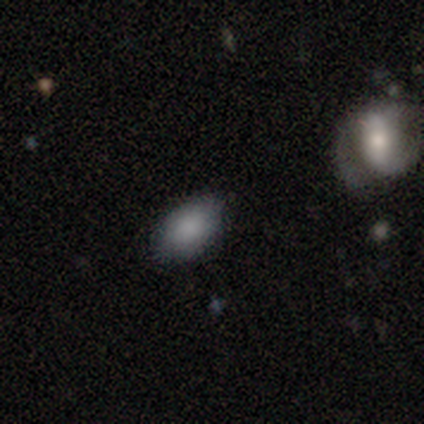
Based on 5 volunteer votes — A smooth galaxy with no disk features (100%) that is in between round and cigar-shaped (100%). Merging: none (100%).